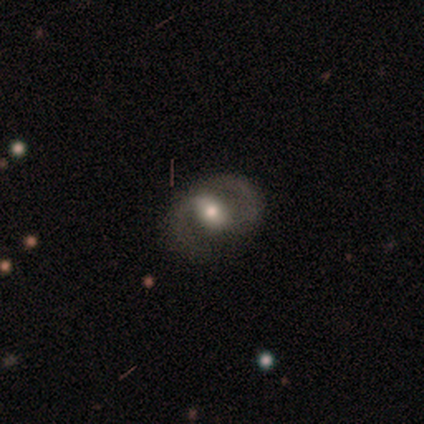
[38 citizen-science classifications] A featured or disk galaxy (76%) with a weak bar (39%), 2 (100%) medium (58%) spiral arms (93%) and a moderate central bulge (61%).

Vote fractions:
- Smooth or featured? featured or disk: 76% / smooth: 18% / star or artifact: 5%
- Edge-on disk? no: 97% / yes: 3%
- Bar? weak: 39% / strong: 32% / no: 29%
- Spiral arms? yes: 93% / no: 7%
- Spiral winding? medium: 58% / tight: 23% / loose: 19%
- Spiral arm count? 2: 100% / 1: 0% / 3: 0% / 4: 0% / more than 4: 0% / can't tell: 0%
- Bulge size? moderate: 61% / small: 21% / large: 11% / dominant: 4% / none: 4%
- Merging? none: 83% / minor disturbance: 11% / major disturbance: 6% / merger: 0%